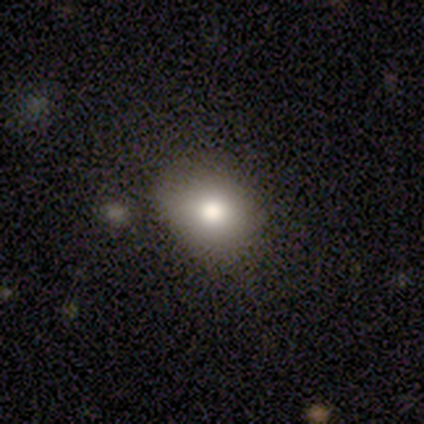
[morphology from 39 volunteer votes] This is likely a smooth galaxy (77%). How rounded: likely round (73%). Merging: likely none (78%).